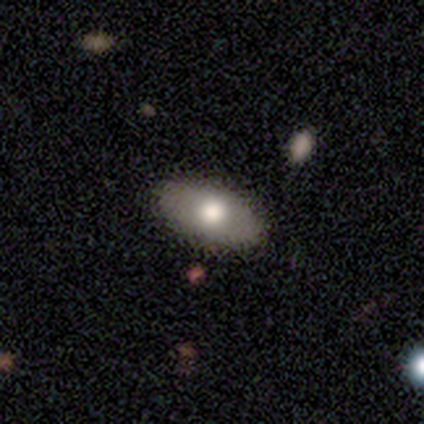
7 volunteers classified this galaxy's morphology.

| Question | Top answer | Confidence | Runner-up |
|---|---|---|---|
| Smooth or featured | smooth | 57% | featured or disk (43%) |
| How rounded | in between | 100% | — |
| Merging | none | 100% | — |